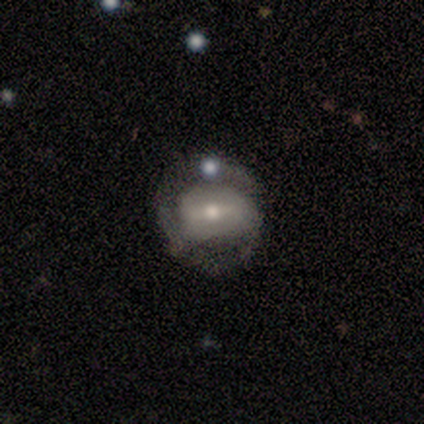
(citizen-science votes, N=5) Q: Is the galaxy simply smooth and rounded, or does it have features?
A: featured or disk — 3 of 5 (60%).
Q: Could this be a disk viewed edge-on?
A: no — 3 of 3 (100%).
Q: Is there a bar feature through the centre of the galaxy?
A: weak — 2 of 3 (67%).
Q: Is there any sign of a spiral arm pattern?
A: no — 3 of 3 (100%).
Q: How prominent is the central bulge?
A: large — 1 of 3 (33%, tied with moderate and small).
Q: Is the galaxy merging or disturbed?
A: none — 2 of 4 (50%).